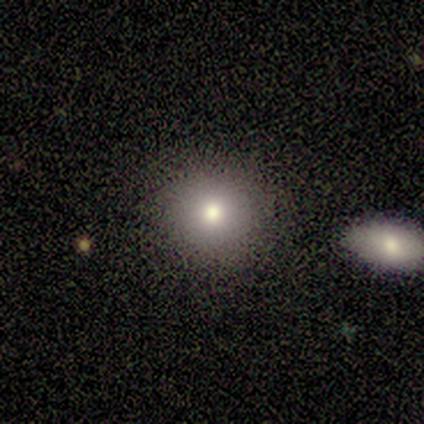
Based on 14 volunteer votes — A smooth galaxy with no disk features (93%) that is round (92%). Merging: none (71%).